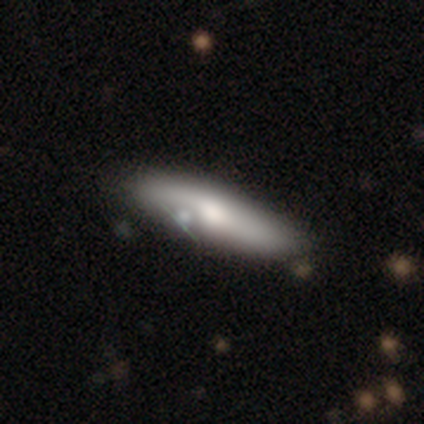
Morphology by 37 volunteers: Smooth or featured? smooth (51%)
How rounded? in between (53%)
Merging? none (50%)